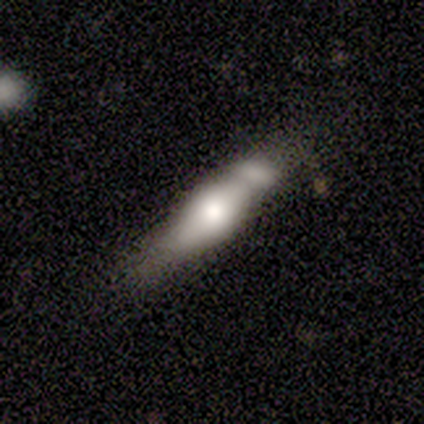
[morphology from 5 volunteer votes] This appears to be a featured or disk galaxy (60%) viewed edge-on (67%) with no central bulge (50%, tied with rounded). Merging: minor disturbance (40%, tied with merger).